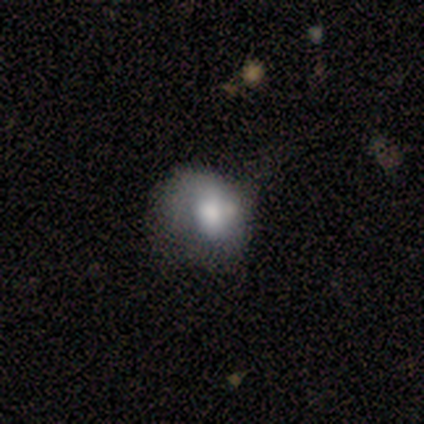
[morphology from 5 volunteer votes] Smooth or featured? 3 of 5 (60%) said smooth. How rounded? 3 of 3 (100%) said in between. Merging? 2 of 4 (50%) said minor disturbance.